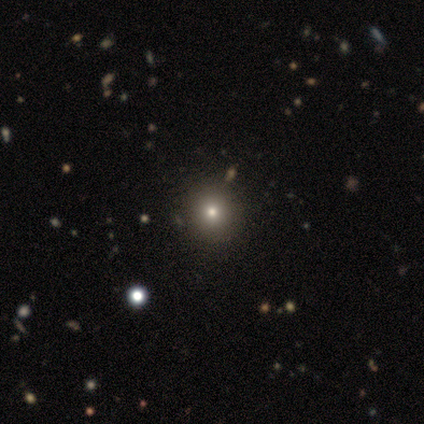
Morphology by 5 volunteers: smooth-or-featured: smooth: 60% | featured or disk: 20% | star or artifact: 20%
  how-rounded: round: 100% | in between: 0% | cigar-shaped: 0%
  merging: none: 75% | minor disturbance: 25% | major disturbance: 0% | merger: 0%